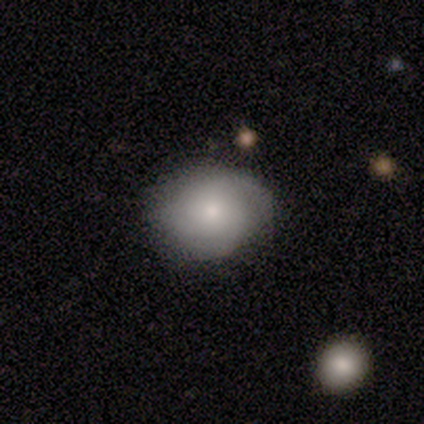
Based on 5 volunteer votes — A featured or disk galaxy (60%) with no bar (100%), tight (67%) spiral arms (100%) and a small central bulge (67%).

Vote fractions:
- Smooth or featured? featured or disk: 60% / smooth: 40% / star or artifact: 0%
- Edge-on disk? no: 100% / yes: 0%
- Bar? no: 100% / strong: 0% / weak: 0%
- Spiral arms? yes: 100% / no: 0%
- Spiral winding? tight: 67% / medium: 33% / loose: 0%
- Spiral arm count? can't tell: 67% / 3: 33% / 1: 0% / 2: 0% / 4: 0% / more than 4: 0%
- Bulge size? small: 67% / dominant: 33% / large: 0% / moderate: 0% / none: 0%
- Merging? minor disturbance: 60% / none: 40% / major disturbance: 0% / merger: 0%